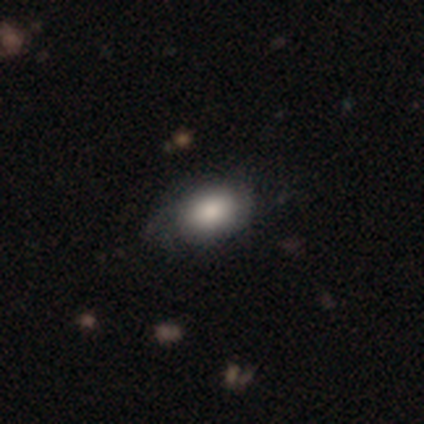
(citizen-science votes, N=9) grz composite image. It shows a smooth galaxy with no disk features (78%) that is in between round and cigar-shaped (57%). Merging: none (89%).